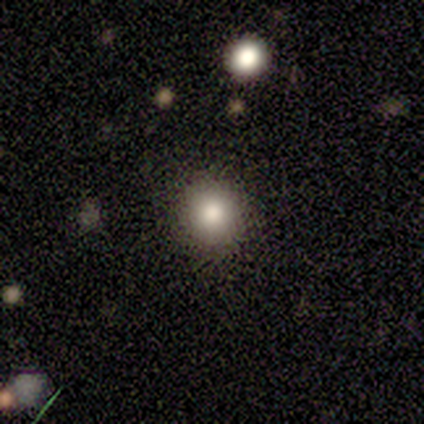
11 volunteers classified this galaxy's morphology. Smooth or featured?
  - smooth: 91% *
  - star or artifact: 9%
  - featured or disk: 0%
How rounded?
  - round: 90% *
  - in between: 10%
  - cigar-shaped: 0%
Merging?
  - none: 80% *
  - minor disturbance: 10%
  - major disturbance: 10%
  - merger: 0%